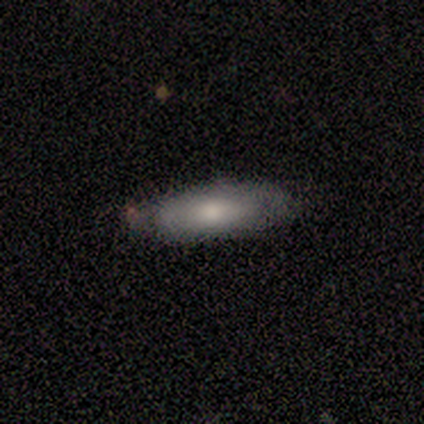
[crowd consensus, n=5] A smooth galaxy with no disk features (60%) that is in between round and cigar-shaped (100%).

Vote fractions:
- Smooth or featured? smooth: 60% / featured or disk: 40% / star or artifact: 0%
- How rounded? in between: 100% / round: 0% / cigar-shaped: 0%
- Merging? none: 40% (tied) / minor disturbance: 40% (tied) / merger: 20% / major disturbance: 0%